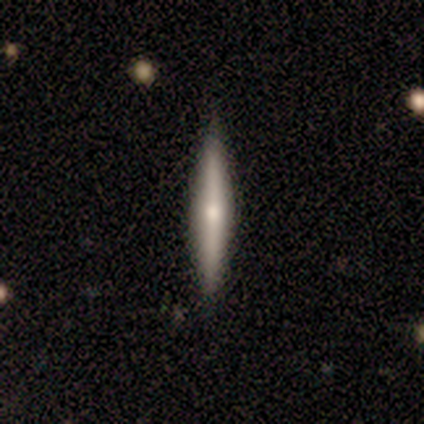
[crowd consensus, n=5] Q: Smooth or featured?
A: featured or disk (60%); runner-up: smooth (40%)
Q: Edge-on disk?
A: yes (100%)
Q: Edge-on bulge?
A: boxy (33%); tied with: none (33%); rounded (33%)
Q: Merging?
A: none (100%)